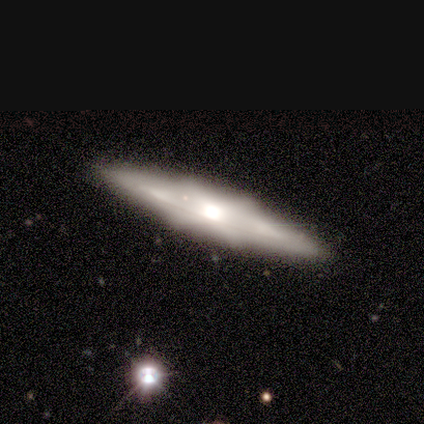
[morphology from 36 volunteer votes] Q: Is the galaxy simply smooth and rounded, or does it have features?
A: featured or disk — 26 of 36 (72%).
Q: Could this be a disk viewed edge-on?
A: yes — 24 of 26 (92%).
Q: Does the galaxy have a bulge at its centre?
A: boxy — 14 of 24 (58%).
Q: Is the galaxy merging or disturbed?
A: none — 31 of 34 (91%).